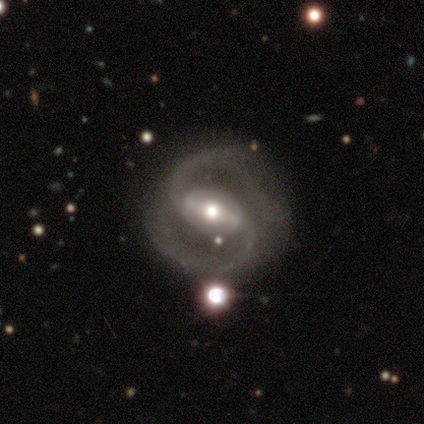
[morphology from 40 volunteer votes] Overall: featured or disk (98%). Edge-on disk: no (100%). Bar: strong (67%). Spiral arms: yes (97%). Spiral arm count: 2 (95%). Spiral winding: medium (68%). Bulge size: moderate (69%). Merging: none (77%).